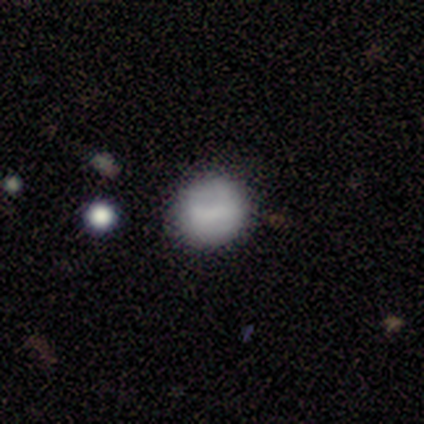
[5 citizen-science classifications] smooth 80%, featured or disk 20%, star or artifact 0%. Down the decision tree: how rounded — round (50%, tied with in between); merging — none (60%).